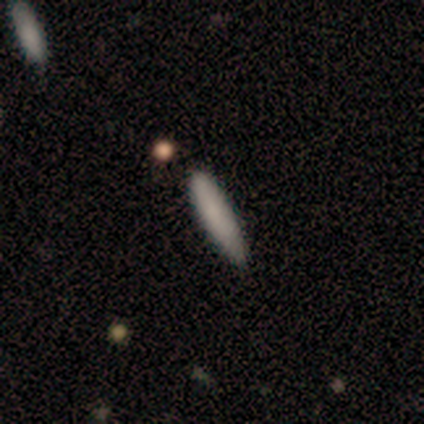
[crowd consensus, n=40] Overall: smooth (78%). How rounded: cigar-shaped (90%). Merging: none (65%).